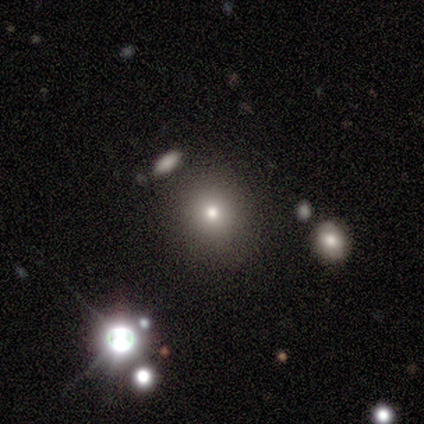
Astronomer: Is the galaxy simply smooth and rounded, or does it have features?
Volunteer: smooth — 40%, tied with star or artifact at 40%.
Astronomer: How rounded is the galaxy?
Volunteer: round — 100%.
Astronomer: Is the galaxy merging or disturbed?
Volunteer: none — 100%.